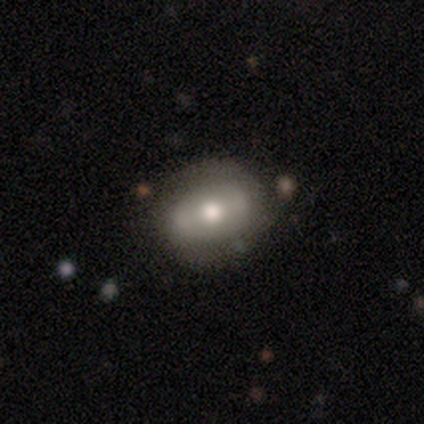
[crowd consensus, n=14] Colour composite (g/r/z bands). It shows a featured or disk galaxy (50%) with no bar (50%), no spiral arms (83%) and a moderate central bulge (83%). Merging: none (100%).